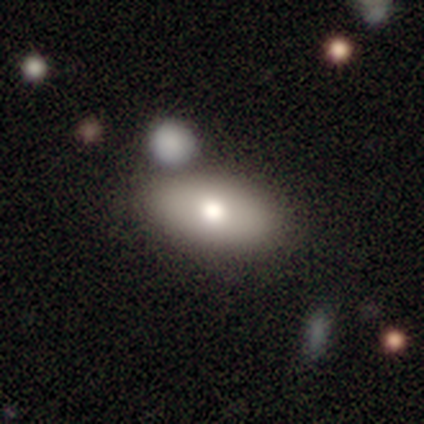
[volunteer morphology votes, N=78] Smooth or featured? smooth (77%)
How rounded? in between (93%)
Merging? none (43%)